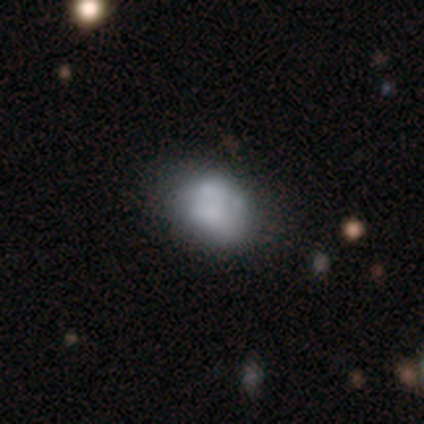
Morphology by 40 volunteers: Overall: smooth (55%; featured or disk 30%). How rounded: in between (55%; round 41%). Merging: none (56%; minor disturbance 21%).